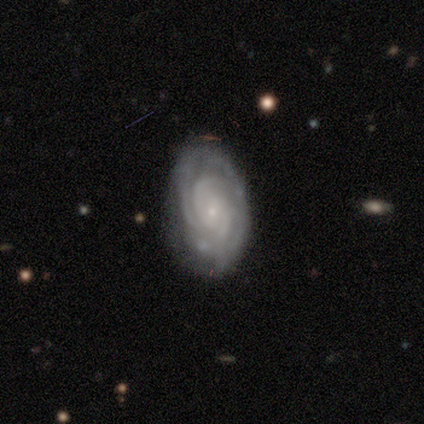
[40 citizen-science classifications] Overall: featured or disk (82%). Edge-on disk: no (97%). Bar: no (62%; weak 34%). Spiral arms: yes (100%). Spiral arm count: can't tell (31%; 3 25%). Spiral winding: tight (75%). Bulge size: small (81%). Merging: none (70%).